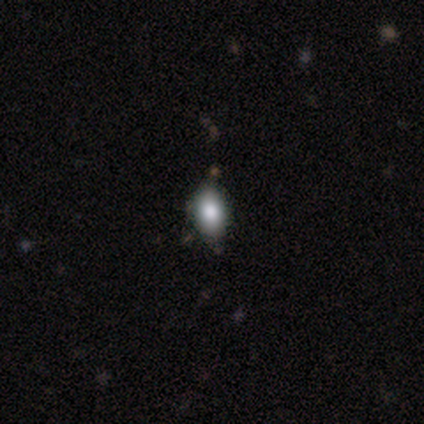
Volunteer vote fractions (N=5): Smooth or featured? 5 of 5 (100%) said smooth. How rounded? 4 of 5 (80%) said in between. Merging? 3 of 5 (60%) said minor disturbance.